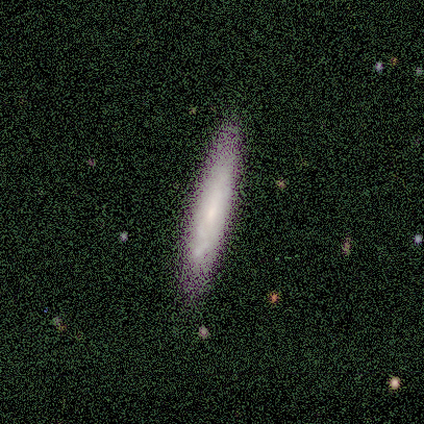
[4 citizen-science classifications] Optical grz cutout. It shows a smooth galaxy with no disk features (100%) that is cigar-shaped (75%). Merging: none (100%).